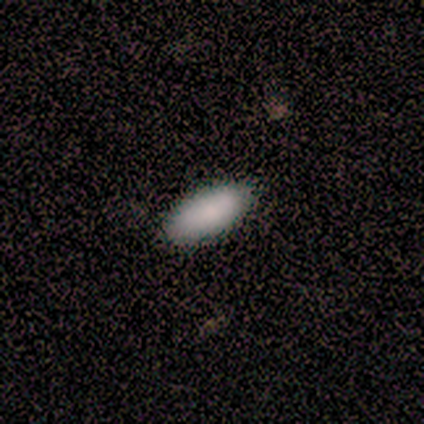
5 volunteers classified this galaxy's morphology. Smooth or featured? 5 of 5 (100%) said smooth. How rounded? 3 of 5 (60%) said in between. Merging? 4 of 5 (80%) said none.